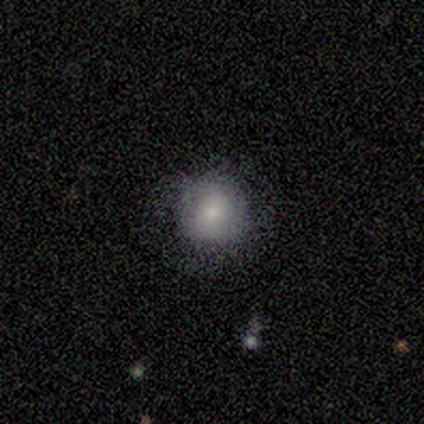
A smooth galaxy with no disk features (80%) that is round (100%). Merging: none (60%).